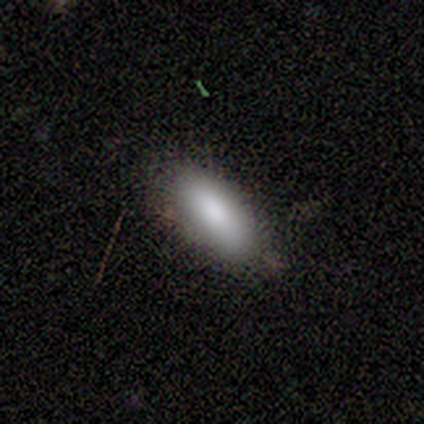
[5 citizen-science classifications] Smooth or featured: smooth — 100%
How rounded: in between — 60% (cigar-shaped — 40%)
Merging: none — 80% (minor disturbance — 20%)